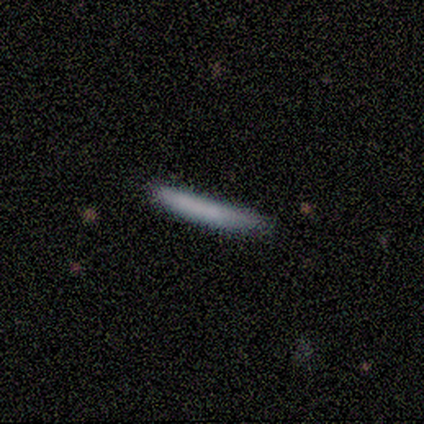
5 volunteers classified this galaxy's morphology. Smooth or featured? smooth (100%)
How rounded? cigar-shaped (100%)
Merging? none (100%)